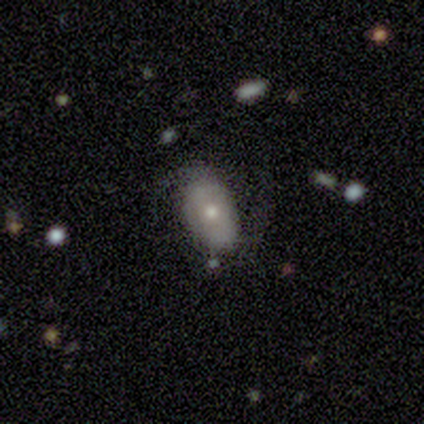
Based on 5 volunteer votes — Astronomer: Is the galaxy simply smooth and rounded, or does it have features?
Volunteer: smooth — 80%.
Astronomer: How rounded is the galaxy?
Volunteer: in between — 100%.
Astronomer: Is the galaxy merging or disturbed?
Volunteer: none — 60% (runner-up: minor disturbance, 40%).